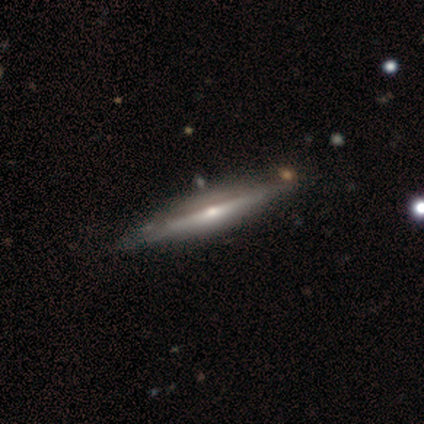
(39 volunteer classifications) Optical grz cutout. It shows a featured or disk galaxy (82%) viewed edge-on (97%) with a rounded central bulge (65%). Merging: none (59%).